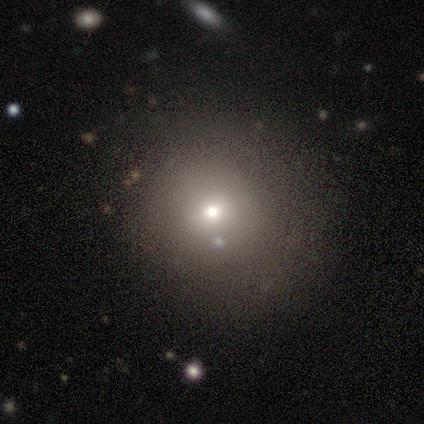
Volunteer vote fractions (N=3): A smooth galaxy with no disk features (67%) that is round (100%).

Vote fractions:
- Smooth or featured? smooth: 67% / featured or disk: 33% / star or artifact: 0%
- How rounded? round: 100% / in between: 0% / cigar-shaped: 0%
- Merging? minor disturbance: 67% / none: 33% / major disturbance: 0% / merger: 0%